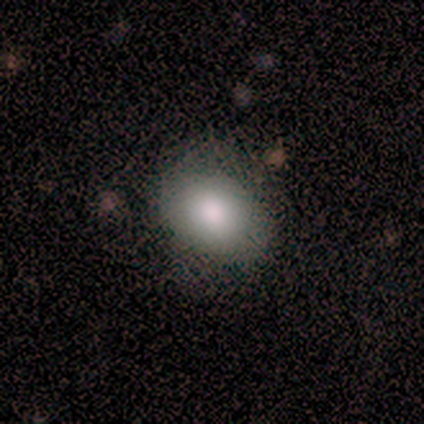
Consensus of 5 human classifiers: Overall: smooth (100%). How rounded: round (40%, tied with in between). Merging: none (60%; minor disturbance 20%).